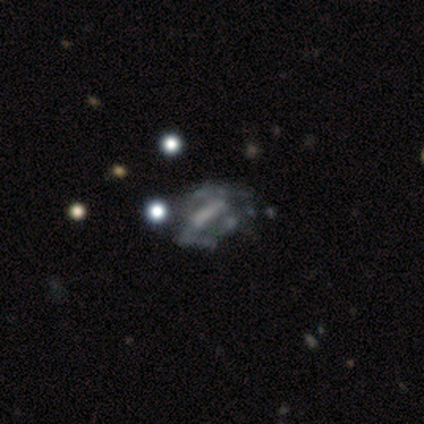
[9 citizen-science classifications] Morphology: type=featured or disk (56%); edge-on=no (100%); bar=weak (60%); spiral arms=no (80%); bulge=moderate (40%, tied with small); merging=major disturbance (57%).